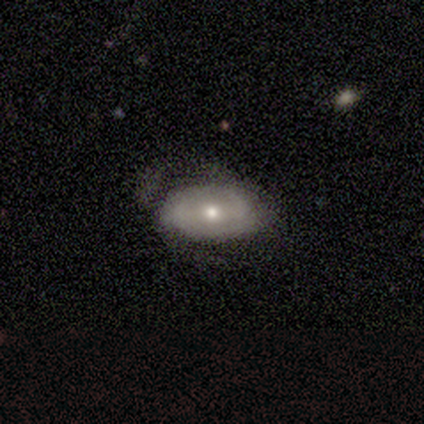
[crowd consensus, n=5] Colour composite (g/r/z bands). It shows a featured or disk galaxy (80%) with no bar (67%), no spiral arms (67%) and a moderate central bulge (33%, tied with small and none). Merging: none (40%, tied with major disturbance).